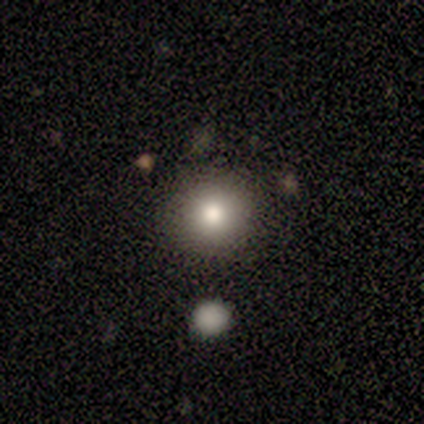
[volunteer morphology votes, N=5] Smooth or featured?
  - smooth: 60% *
  - featured or disk: 40%
  - star or artifact: 0%
How rounded?
  - round: 100% *
  - in between: 0%
  - cigar-shaped: 0%
Merging?
  - none: 100% *
  - minor disturbance: 0%
  - major disturbance: 0%
  - merger: 0%